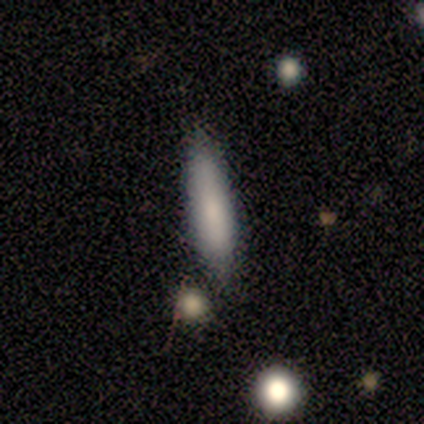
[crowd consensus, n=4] Morphology: type=smooth (75%); roundness=cigar-shaped (100%); merging=none (75%).